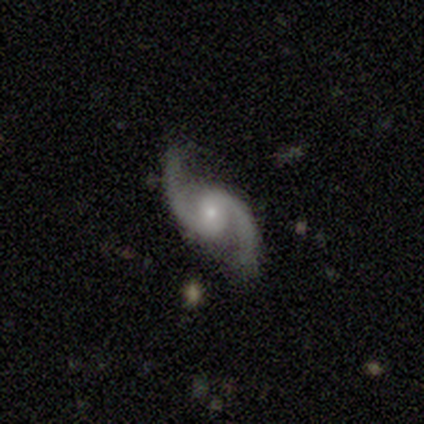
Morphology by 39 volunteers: smooth-or-featured: featured or disk: 92% | star or artifact: 5% | smooth: 3%
  disk-edge-on: no: 100% | yes: 0%
    bar: no: 47% | weak: 39% | strong: 14%
    has-spiral-arms: yes: 94% | no: 6%
      spiral-winding: loose: 59% | medium: 35% | tight: 6%
      spiral-arm-count: 2: 97% | 1: 3% | 3: 0% | 4: 0% | more than 4: 0% | can't tell: 0%
    bulge-size: small: 67% | moderate: 33% | dominant: 0% | large: 0% | none: 0%
  merging: none: 76% | minor disturbance: 22% | major disturbance: 3% | merger: 0%